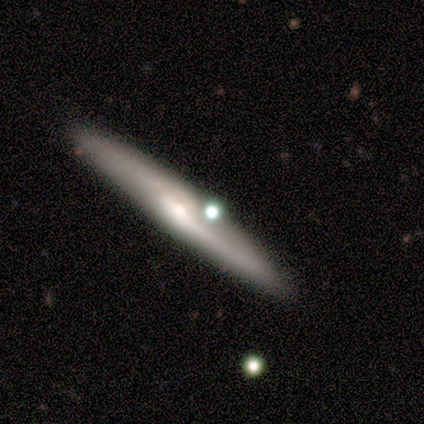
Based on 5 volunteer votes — smooth_or_featured: featured or disk (p=1.00)
disk_edge_on: yes (p=1.00)
edge_on_bulge: rounded (p=0.60) [alt: boxy p=0.20]
merging: none (p=0.80) [alt: minor disturbance p=0.20]